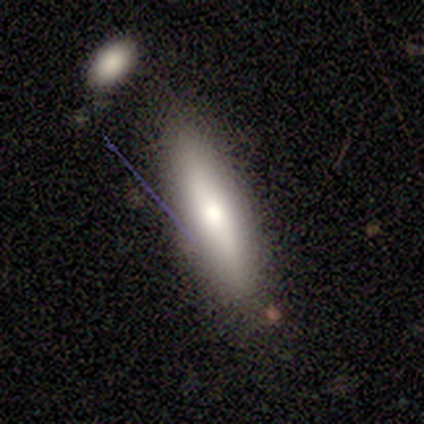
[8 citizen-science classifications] Smooth or featured?
  - smooth: 88% *
  - featured or disk: 12%
  - star or artifact: 0%
How rounded?
  - in between: 71% *
  - cigar-shaped: 29%
  - round: 0%
Merging?
  - none: 75% *
  - minor disturbance: 25%
  - major disturbance: 0%
  - merger: 0%